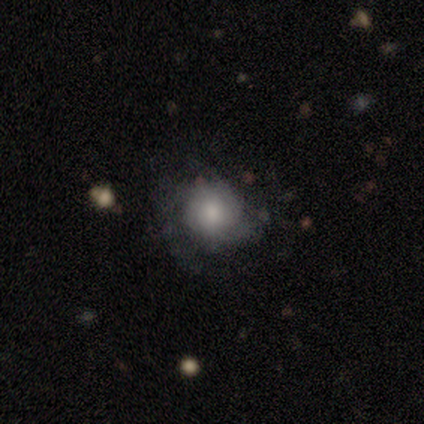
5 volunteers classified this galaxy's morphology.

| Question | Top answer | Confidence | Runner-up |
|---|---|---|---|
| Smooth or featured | smooth | 60% | featured or disk (40%) |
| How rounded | round | 100% | — |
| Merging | major disturbance | 60% | none (40%) |